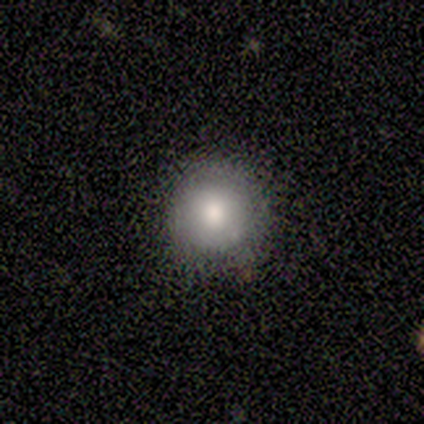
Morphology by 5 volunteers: smooth-or-featured: smooth: 100% | featured or disk: 0% | star or artifact: 0%
  how-rounded: round: 100% | in between: 0% | cigar-shaped: 0%
  merging: none: 100% | minor disturbance: 0% | major disturbance: 0% | merger: 0%